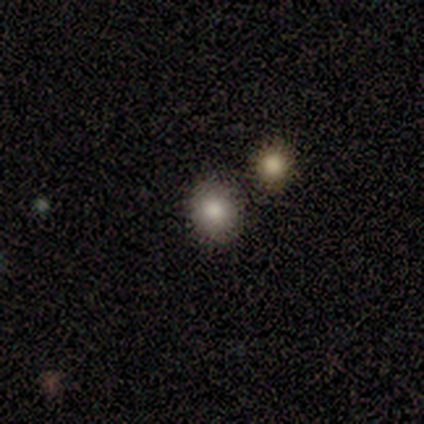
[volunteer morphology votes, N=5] Volunteers were most divided on "smooth or featured": smooth: 80%, featured or disk: 20%, star or artifact: 0%. More confident: how rounded — round (100%); merging — none (80%).